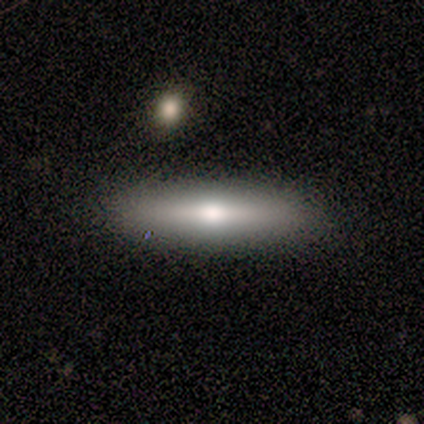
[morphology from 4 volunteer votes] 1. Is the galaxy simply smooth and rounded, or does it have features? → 50% smooth (tied), 50% featured or disk (tied), 0% star or artifact.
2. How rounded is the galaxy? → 100% cigar-shaped, 0% round, 0% in between.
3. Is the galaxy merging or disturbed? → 50% major disturbance, 25% none, 25% minor disturbance, 0% merger.